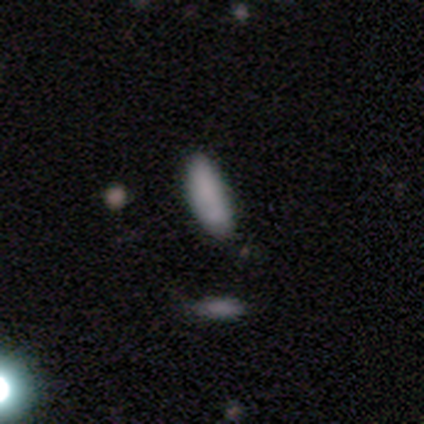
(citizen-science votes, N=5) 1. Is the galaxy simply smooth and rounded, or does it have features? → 80% smooth, 20% featured or disk, 0% star or artifact.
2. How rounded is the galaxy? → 100% cigar-shaped, 0% round, 0% in between.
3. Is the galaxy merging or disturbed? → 40% none (tied), 40% minor disturbance (tied), 20% merger, 0% major disturbance.